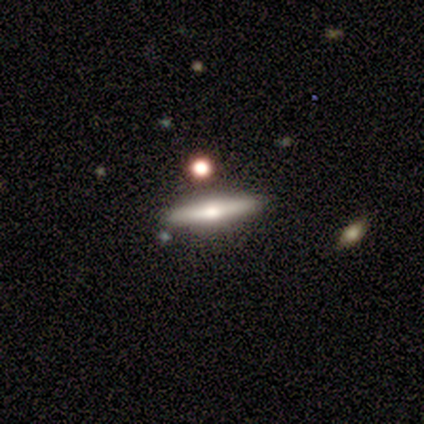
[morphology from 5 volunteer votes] Volunteers were most divided on "smooth or featured": featured or disk: 80%, smooth: 20%, star or artifact: 0%. More confident: edge-on disk — yes (100%); edge-on bulge — rounded (100%); merging — none (80%).